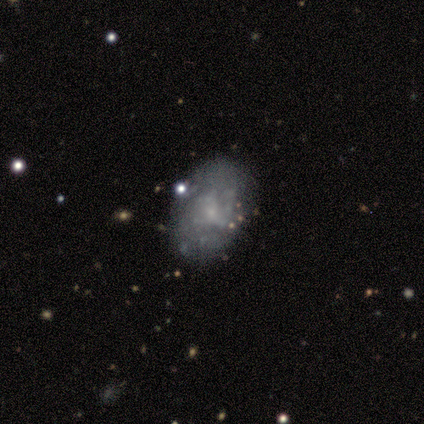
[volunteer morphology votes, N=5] Overall: featured or disk (60%; smooth 40%). Edge-on disk: no (100%). Bar: no (67%; weak 33%). Spiral arms: no (67%; yes 33%). Bulge size: small (67%; moderate 33%). Merging: none (80%).